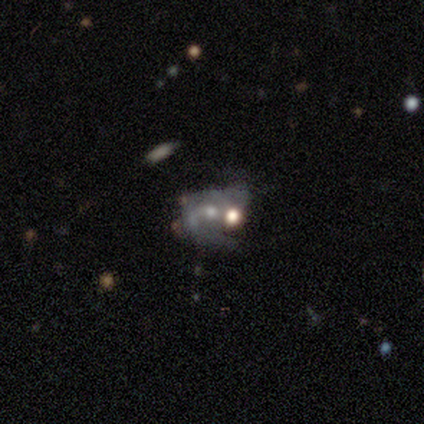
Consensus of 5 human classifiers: This appears to be a featured or disk galaxy (100%) with a weak bar (60%), 2 (75%) loose (50%) spiral arms (80%) and a moderate central bulge (40%, tied with small). Merging: merger (60%).